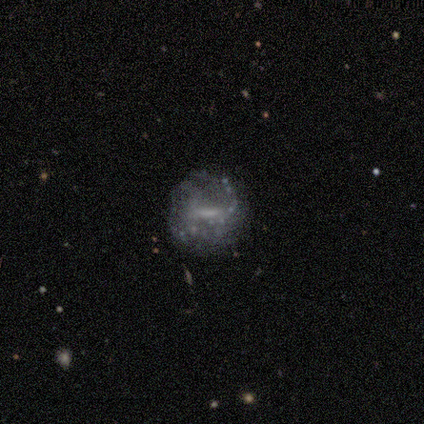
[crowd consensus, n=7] smooth_or_featured: featured or disk (p=0.86) [alt: star or artifact p=0.14]
disk_edge_on: no (p=1.00)
bar: no (p=0.50) [alt: weak p=0.33]
has_spiral_arms: no (p=0.83) [alt: yes p=0.17]
bulge_size: small (p=0.83) [alt: moderate p=0.17]
merging: none (p=0.67) [alt: minor disturbance p=0.33]